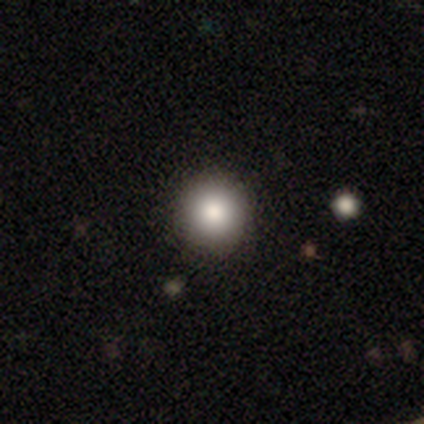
Smooth or featured: smooth — 100%
How rounded: round — 100%
Merging: none — 100%